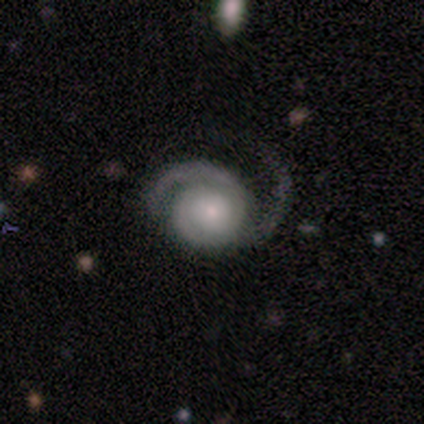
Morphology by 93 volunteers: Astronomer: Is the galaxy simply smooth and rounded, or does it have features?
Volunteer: featured or disk — 89%.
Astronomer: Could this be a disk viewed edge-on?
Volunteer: no — 96%.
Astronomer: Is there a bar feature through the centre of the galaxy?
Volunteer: no — 82%.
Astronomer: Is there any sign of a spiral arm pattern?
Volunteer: yes — 100%.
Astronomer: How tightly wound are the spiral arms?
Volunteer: medium — 49% (runner-up: tight, 45%).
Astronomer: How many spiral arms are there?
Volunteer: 2 — 71%.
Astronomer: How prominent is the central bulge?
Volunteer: small — 46% (runner-up: moderate, 31%).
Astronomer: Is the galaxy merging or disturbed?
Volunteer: none — 43% (runner-up: major disturbance, 37%).